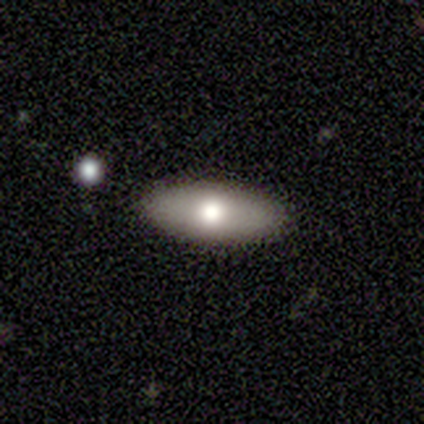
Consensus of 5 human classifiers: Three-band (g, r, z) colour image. It shows a smooth galaxy with no disk features (80%) that is in between round and cigar-shaped (75%). Merging: none (100%).